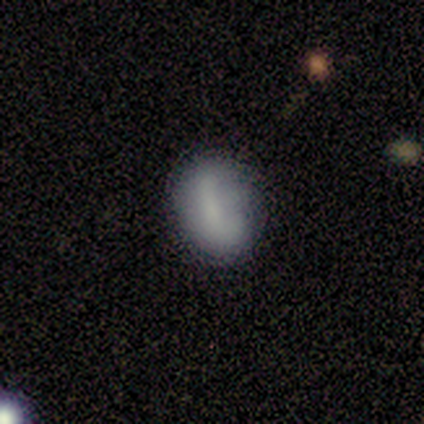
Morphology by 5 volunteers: A featured or disk galaxy (60%) with a strong bar (67%), no spiral arms (100%) and a small central bulge (67%).

Vote fractions:
- Smooth or featured? featured or disk: 60% / smooth: 40% / star or artifact: 0%
- Edge-on disk? no: 100% / yes: 0%
- Bar? strong: 67% / no: 33% / weak: 0%
- Spiral arms? no: 100% / yes: 0%
- Bulge size? small: 67% / none: 33% / dominant: 0% / large: 0% / moderate: 0%
- Merging? none: 60% / minor disturbance: 20% / major disturbance: 20% / merger: 0%